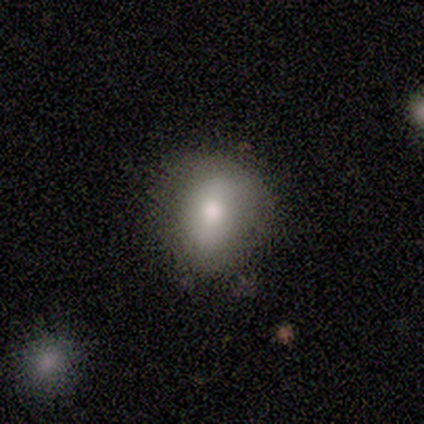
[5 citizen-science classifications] Morphology: type=smooth (60%); roundness=round (100%); merging=none (100%).